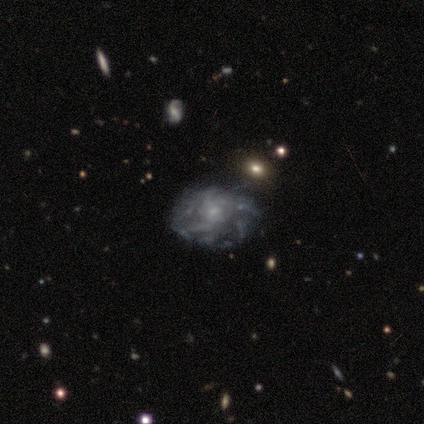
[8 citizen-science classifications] A featured or disk galaxy (100%) with no bar (62%), tight (57%) spiral arms (88%) and a small central bulge (88%). Merging: none (62%).